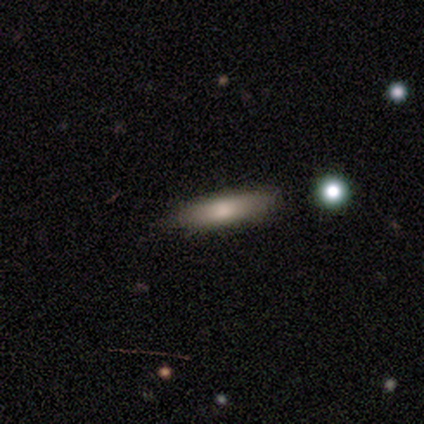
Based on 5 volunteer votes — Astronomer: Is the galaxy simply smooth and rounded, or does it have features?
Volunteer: smooth — 80%.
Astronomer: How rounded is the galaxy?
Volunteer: cigar-shaped — 100%.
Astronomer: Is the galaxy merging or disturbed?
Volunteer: none — 100%.